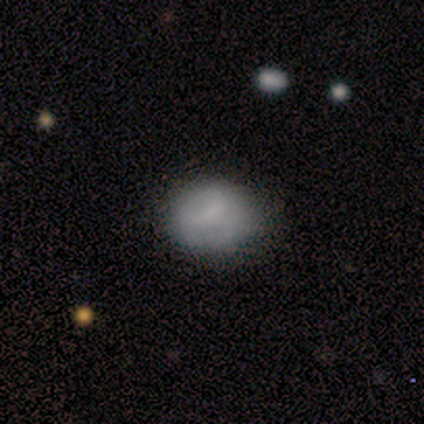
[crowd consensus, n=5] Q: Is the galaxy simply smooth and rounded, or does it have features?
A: smooth — 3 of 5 (60%).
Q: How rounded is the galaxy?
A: round — 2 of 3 (67%).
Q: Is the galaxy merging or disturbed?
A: none — 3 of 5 (60%).